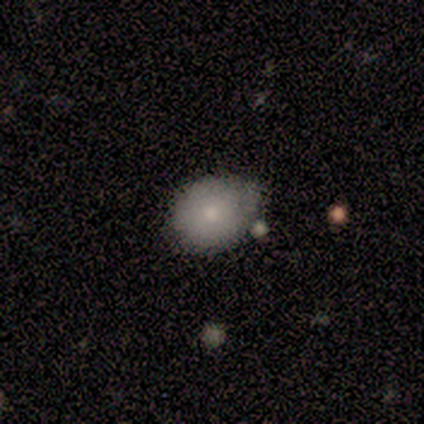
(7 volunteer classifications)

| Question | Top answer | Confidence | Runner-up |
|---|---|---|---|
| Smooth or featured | smooth | 86% | featured or disk (14%) |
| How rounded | round | 67% | in between (33%) |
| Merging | none | 86% | minor disturbance (14%) |